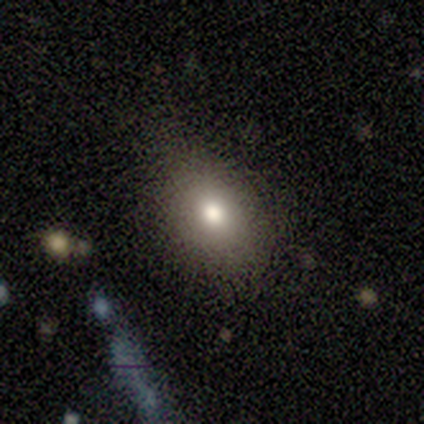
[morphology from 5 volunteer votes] Overall: smooth (80%). How rounded: in between (75%). Merging: none (50%, tied with minor disturbance).